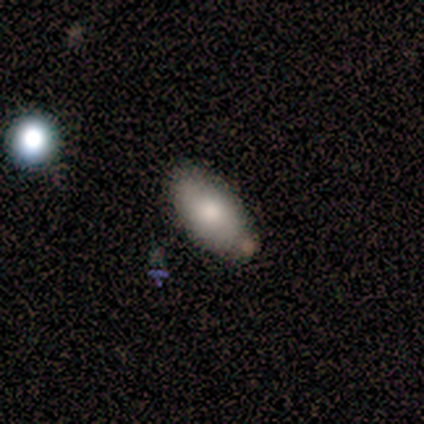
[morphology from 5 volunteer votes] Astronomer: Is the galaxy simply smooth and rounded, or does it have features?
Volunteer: smooth — 80%.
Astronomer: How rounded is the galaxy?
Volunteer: in between — 100%.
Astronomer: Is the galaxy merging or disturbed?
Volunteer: none — 80%.